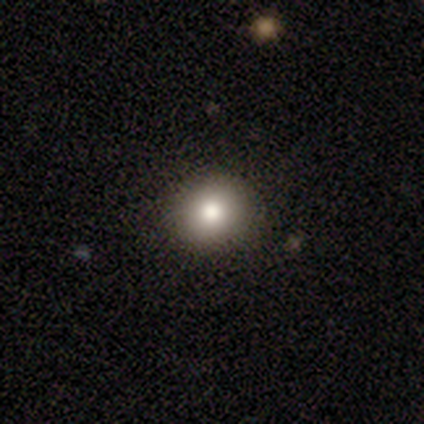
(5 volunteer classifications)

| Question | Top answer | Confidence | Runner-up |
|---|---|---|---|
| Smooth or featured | smooth | 80% | featured or disk (20%) |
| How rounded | round | 75% | in between (25%) |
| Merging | none | 100% | — |